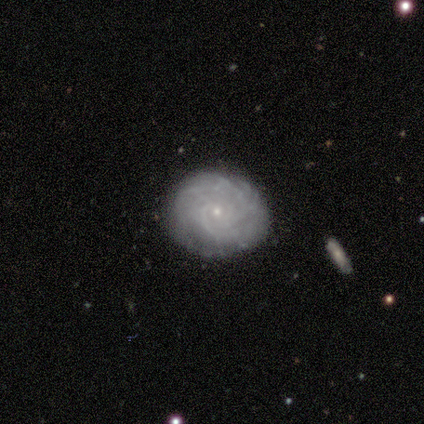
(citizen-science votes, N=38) Volunteers were most divided on "spiral arm count" (2-way tie): more than 4: 33%, can't tell: 33%, 2: 15%, 3: 15%, 4: 4%, 1: 0%. More confident: edge-on disk — no (100%); spiral arms — yes (100%); merging — none (89%); bulge size — small (89%); spiral winding — tight (81%); bar — no (74%); smooth or featured — featured or disk (71%).